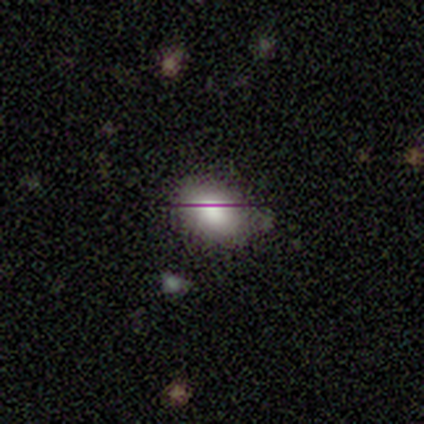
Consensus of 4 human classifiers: Smooth or featured?
  - smooth: 75% *
  - featured or disk: 25%
  - star or artifact: 0%
How rounded?
  - in between: 100% *
  - round: 0%
  - cigar-shaped: 0%
Merging?
  - none: 75% *
  - major disturbance: 25%
  - minor disturbance: 0%
  - merger: 0%